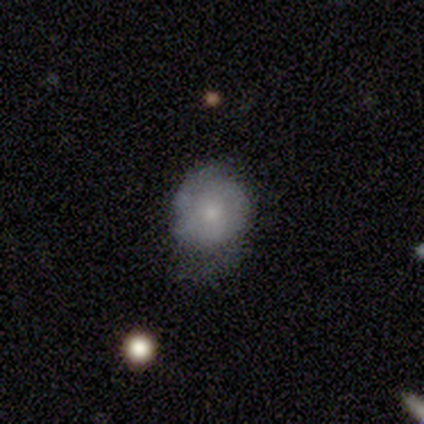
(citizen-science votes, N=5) smooth 60%, featured or disk 40%, star or artifact 0%. Down the decision tree: how rounded — round (100%); merging — none (60%).